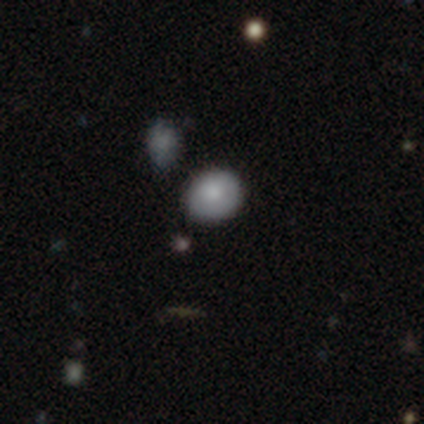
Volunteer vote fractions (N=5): This is clearly a smooth galaxy (100%). How rounded: likely round (60%). Merging: clearly none (80%).